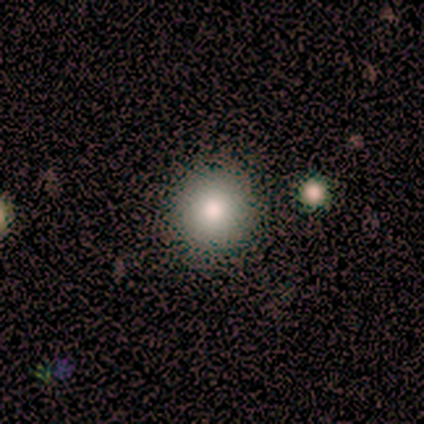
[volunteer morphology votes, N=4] A smooth galaxy with no disk features (100%) that is round (100%). Merging: none (100%).